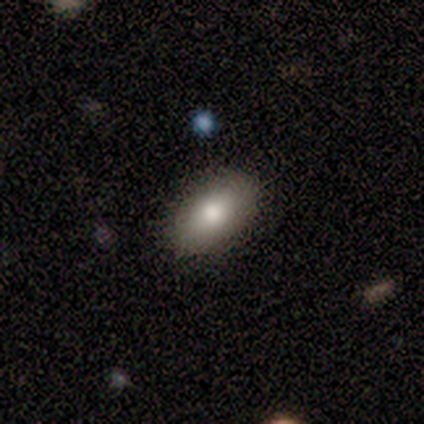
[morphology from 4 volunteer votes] smooth-or-featured: smooth: 50% | featured or disk: 25% | star or artifact: 25%
  how-rounded: in between: 50% (tied) | cigar-shaped: 50% (tied) | round: 0%
  merging: none: 67% | minor disturbance: 33% | major disturbance: 0% | merger: 0%